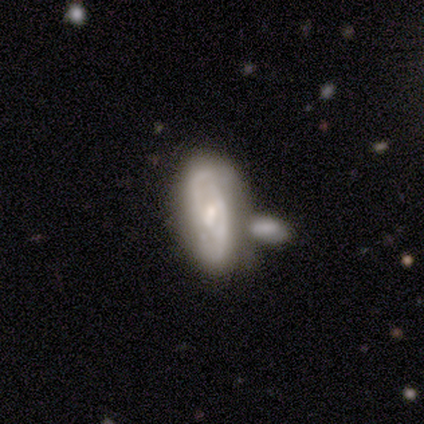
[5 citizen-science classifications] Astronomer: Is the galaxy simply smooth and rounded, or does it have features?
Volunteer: featured or disk — 60% (runner-up: smooth, 40%).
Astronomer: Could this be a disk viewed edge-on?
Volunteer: no — 67%.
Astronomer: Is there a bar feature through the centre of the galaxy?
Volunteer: weak — 50%, tied with no at 50%.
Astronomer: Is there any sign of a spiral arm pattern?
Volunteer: yes — 50%, tied with no at 50%.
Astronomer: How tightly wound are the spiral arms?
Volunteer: tight — 100%.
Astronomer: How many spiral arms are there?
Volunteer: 2 — 100%.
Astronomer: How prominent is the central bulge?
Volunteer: moderate — 50%, tied with small at 50%.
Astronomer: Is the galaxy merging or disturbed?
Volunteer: none — 80%.